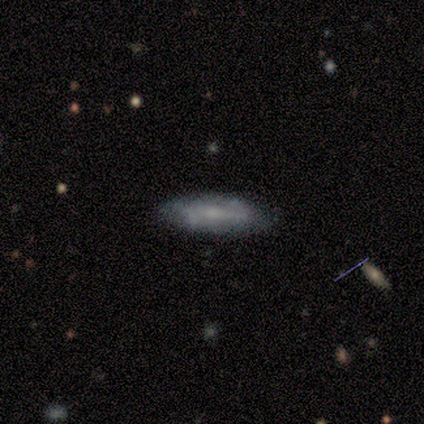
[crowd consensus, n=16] Smooth or featured: smooth — 75% (featured or disk — 25%)
How rounded: in between — 58% (cigar-shaped — 42%)
Merging: none — 62% (minor disturbance — 31%)